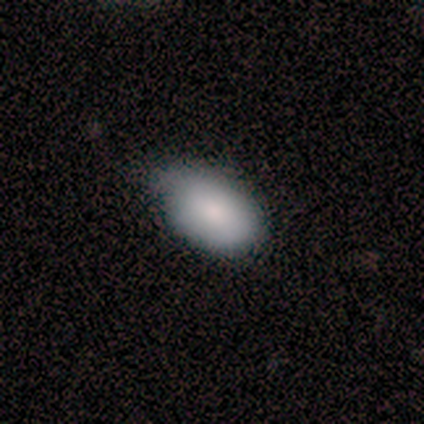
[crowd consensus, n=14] Q: Smooth or featured?
A: smooth (93%); runner-up: featured or disk (7%)
Q: How rounded?
A: in between (100%)
Q: Merging?
A: minor disturbance (57%); runner-up: none (29%)